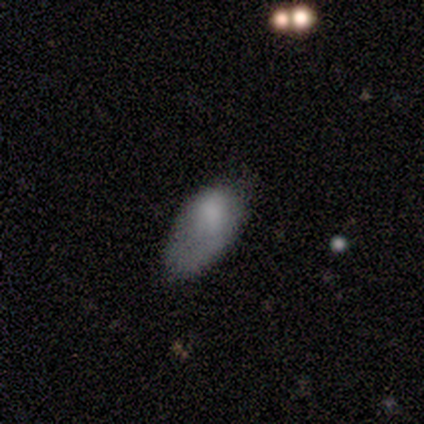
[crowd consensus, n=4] A smooth galaxy with no disk features (75%) that is in between round and cigar-shaped (100%). Merging: none (50%).